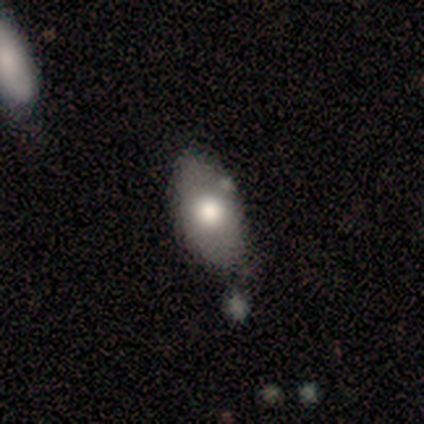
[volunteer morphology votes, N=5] Overall: featured or disk (60%; smooth 20%). Edge-on disk: no (100%). Bar: no (100%). Spiral arms: no (100%). Bulge size: large (33%, tied with moderate and none). Merging: none (50%; minor disturbance 25%).